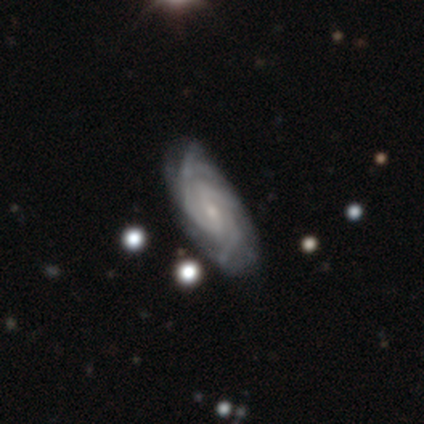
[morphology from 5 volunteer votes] This appears to be a featured or disk galaxy (100%) with no bar (50%), tight (100%) spiral arms (100%) and a small central bulge (100%). Merging: none (60%).